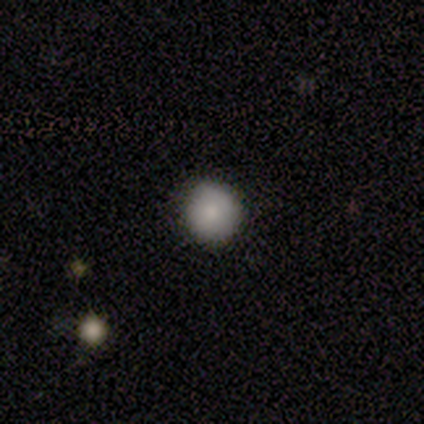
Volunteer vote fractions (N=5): Overall: smooth (100%). How rounded: round (100%). Merging: none (80%).